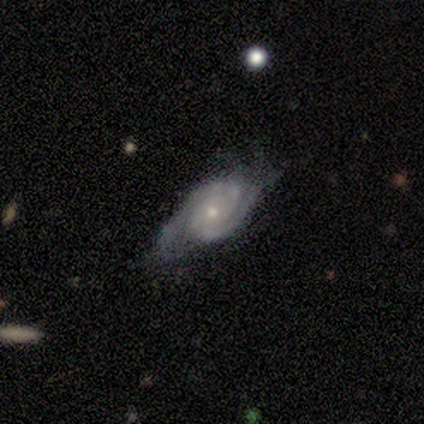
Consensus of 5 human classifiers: Volunteers were most divided on "bulge size": moderate: 60%, small: 40%, dominant: 0%, large: 0%, none: 0%. More confident: smooth or featured — featured or disk (100%); edge-on disk — no (100%); spiral arms — yes (100%); bar — no (80%); spiral arm count — 2 (80%); merging — none (80%); spiral winding — tight (60%).